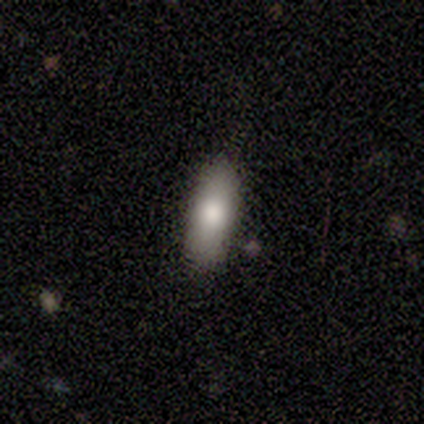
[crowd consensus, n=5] This appears to be a smooth galaxy with no disk features (80%) that is in between round and cigar-shaped (50%, tied with cigar-shaped). Merging: none (100%).